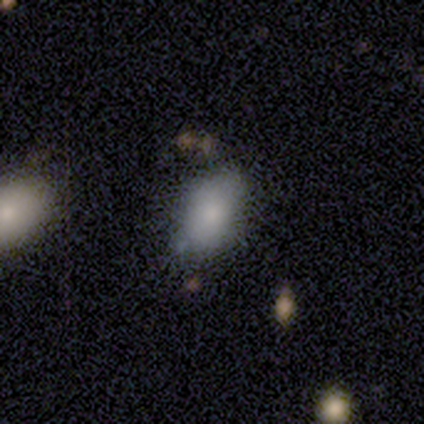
smooth_or_featured: smooth (p=0.40) [tied with: featured or disk p=0.40]
how_rounded: in between (p=1.00)
merging: minor disturbance (p=0.50) [tied with: merger p=0.50]